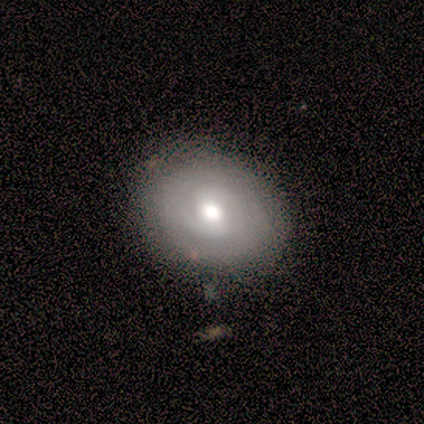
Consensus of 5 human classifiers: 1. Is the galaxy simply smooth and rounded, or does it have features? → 60% featured or disk, 20% smooth, 20% star or artifact.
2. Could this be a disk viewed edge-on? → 100% no, 0% yes.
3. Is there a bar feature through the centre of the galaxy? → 67% weak, 33% no, 0% strong.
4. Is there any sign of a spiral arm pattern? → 100% yes, 0% no.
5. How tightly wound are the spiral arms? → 100% tight, 0% medium, 0% loose.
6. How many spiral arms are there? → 67% 2, 33% can't tell, 0% 1, 0% 3, 0% 4, 0% more than 4.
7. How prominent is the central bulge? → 67% moderate, 33% small, 0% dominant, 0% large, 0% none.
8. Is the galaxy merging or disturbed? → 75% none, 25% minor disturbance, 0% major disturbance, 0% merger.